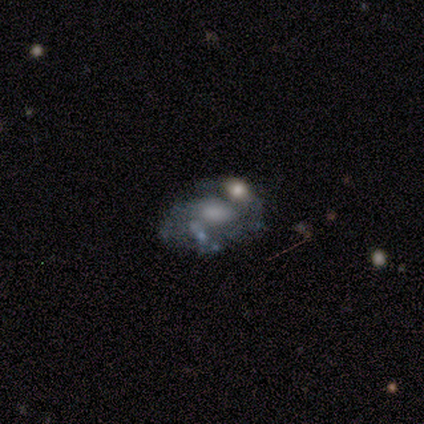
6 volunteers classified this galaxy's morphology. This is clearly a featured or disk galaxy (100%). It is clearly not viewed edge-on (100%). Bar: likely no (67%). Spiral arm pattern: possibly yes (50%, tied with no). Spiral arm count: likely 2 (67%). Spiral winding: likely medium (67%). Central bulge: likely moderate (67%). Merging: possibly none (50%).